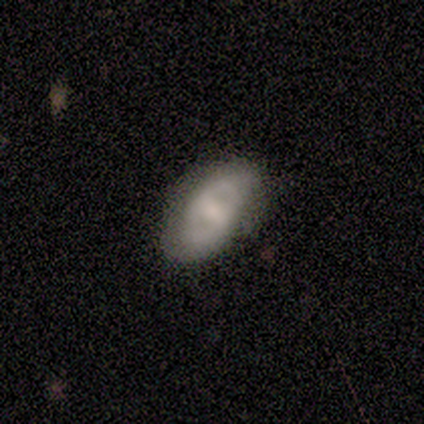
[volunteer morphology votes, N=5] type=featured or disk (60%); edge-on=no (100%); bar=weak (67%); spiral arms=no (67%); bulge=small (67%); merging=none (80%).